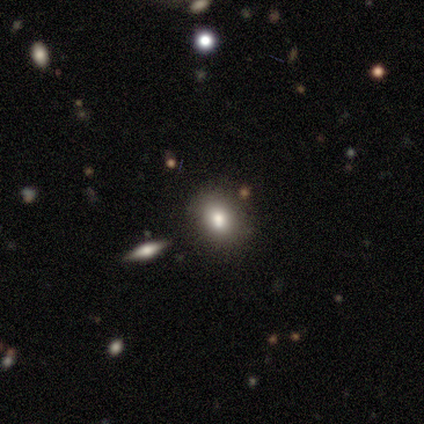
Morphology: type=featured or disk (50%); edge-on=yes (50%, tied with no); edge-on bulge=rounded (100%); merging=none (67%).